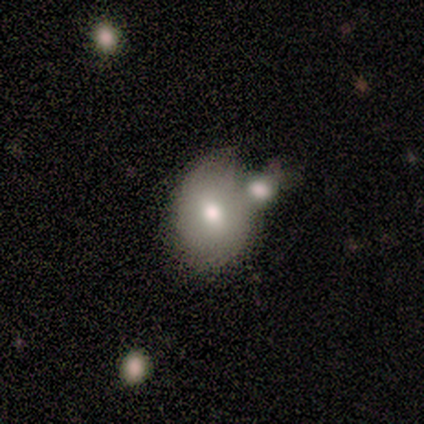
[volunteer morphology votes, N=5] A smooth galaxy with no disk features (60%) that is in between round and cigar-shaped (67%).

Vote fractions:
- Smooth or featured? smooth: 60% / featured or disk: 40% / star or artifact: 0%
- How rounded? in between: 67% / round: 33% / cigar-shaped: 0%
- Merging? none: 40% (tied) / minor disturbance: 40% (tied) / merger: 20% / major disturbance: 0%